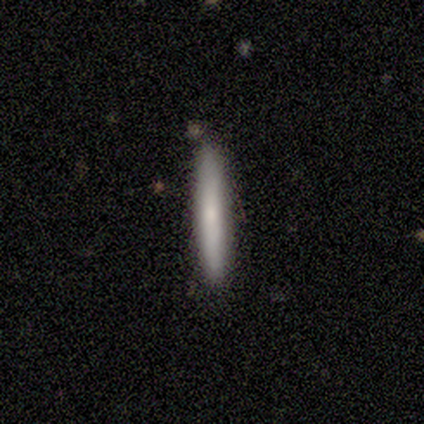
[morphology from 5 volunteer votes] Smooth or featured? 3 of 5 (60%) said smooth. How rounded? 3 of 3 (100%) said cigar-shaped. Merging? 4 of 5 (80%) said none.